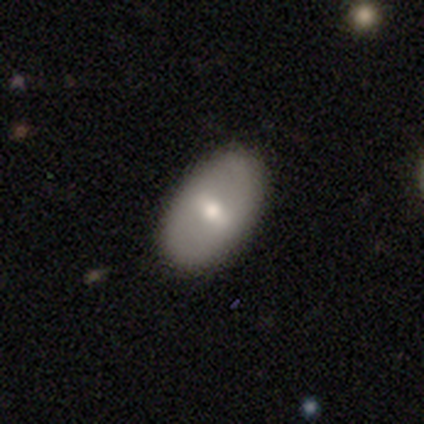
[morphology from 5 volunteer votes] type=featured or disk (60%); edge-on=no (100%); bar=strong (67%); spiral arms=no (67%); bulge=moderate (100%); merging=none (100%).